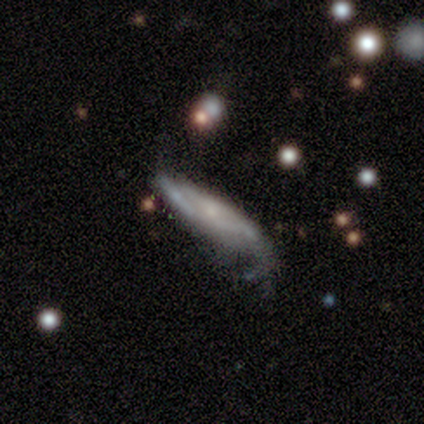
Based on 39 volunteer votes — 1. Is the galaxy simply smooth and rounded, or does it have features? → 77% featured or disk, 23% smooth, 0% star or artifact.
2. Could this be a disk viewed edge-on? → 63% no, 37% yes.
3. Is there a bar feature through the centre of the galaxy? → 84% no, 16% weak, 0% strong.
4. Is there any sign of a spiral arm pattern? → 79% yes, 21% no.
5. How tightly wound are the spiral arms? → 47% medium, 33% loose, 20% tight.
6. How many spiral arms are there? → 47% can't tell, 40% 2, 13% 1, 0% 3, 0% 4, 0% more than 4.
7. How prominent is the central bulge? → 68% small, 16% none, 11% moderate, 5% large, 0% dominant.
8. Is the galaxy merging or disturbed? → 33% major disturbance, 26% none, 23% minor disturbance, 0% merger.